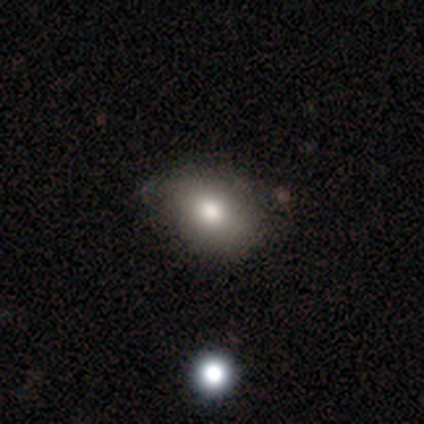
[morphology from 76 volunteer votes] Overall: smooth (76%). How rounded: in between (69%; round 29%). Merging: none (32%; minor disturbance 12%).